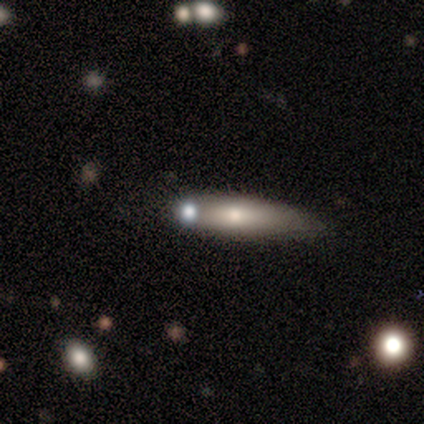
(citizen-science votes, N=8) smooth_or_featured: smooth (p=0.88) [alt: featured or disk p=0.12]
how_rounded: in between (p=0.71) [alt: cigar-shaped p=0.29]
merging: none (p=0.62) [alt: merger p=0.25]